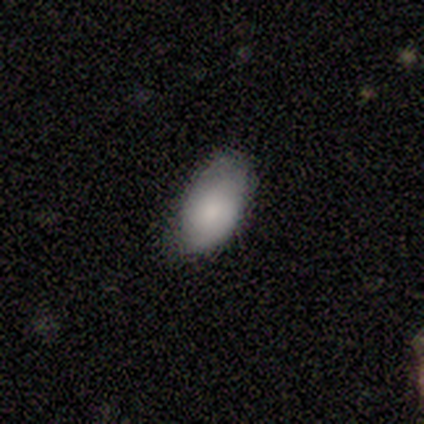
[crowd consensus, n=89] Smooth or featured? 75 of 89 (84%) said smooth. How rounded? 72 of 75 (96%) said in between. Merging? 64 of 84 (76%) said none.